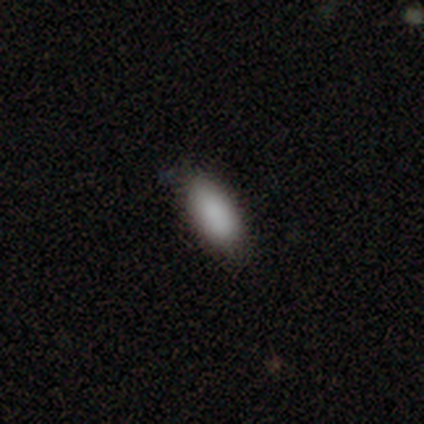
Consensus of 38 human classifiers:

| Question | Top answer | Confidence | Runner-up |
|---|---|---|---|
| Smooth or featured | smooth | 89% | featured or disk (5%) |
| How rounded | in between | 91% | cigar-shaped (6%) |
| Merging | none | 86% | minor disturbance (11%) |